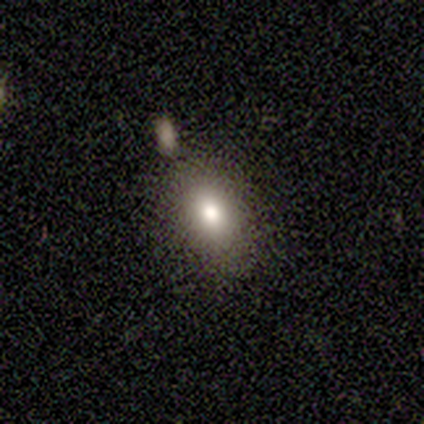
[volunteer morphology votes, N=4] This appears to be a smooth galaxy with no disk features (75%) that is in between round and cigar-shaped (67%). Merging: merger (50%).